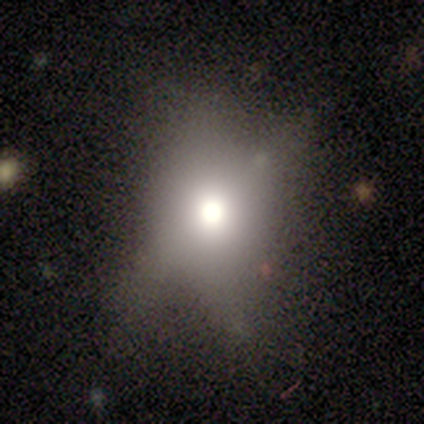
smooth-or-featured: smooth: 40% (tied) | featured or disk: 40% (tied) | star or artifact: 20%
  how-rounded: round: 50% (tied) | in between: 50% (tied) | cigar-shaped: 0%
  merging: none: 50% (tied) | major disturbance: 50% (tied) | minor disturbance: 0% | merger: 0%